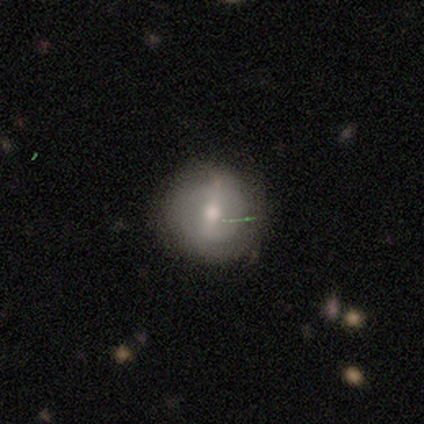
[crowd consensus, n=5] Volunteers were most divided on "spiral arm count" (2-way tie): 1: 50%, can't tell: 50%, 2: 0%, 3: 0%, 4: 0%, more than 4: 0%. More confident: edge-on disk — no (100%); spiral winding — tight (100%); bar — strong (67%); spiral arms — yes (67%); bulge size — moderate (67%); smooth or featured — featured or disk (60%); merging — none (60%).